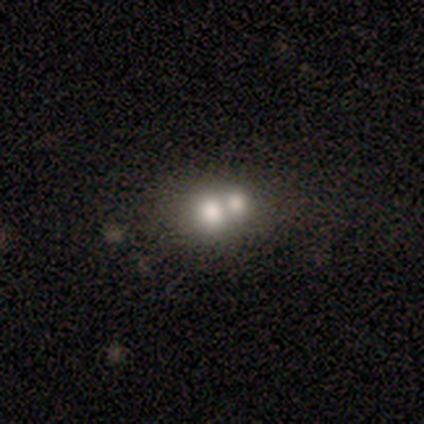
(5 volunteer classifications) This is clearly a smooth galaxy (80%). How rounded: likely round (75%). Merging: marginally none (40%, tied with merger).